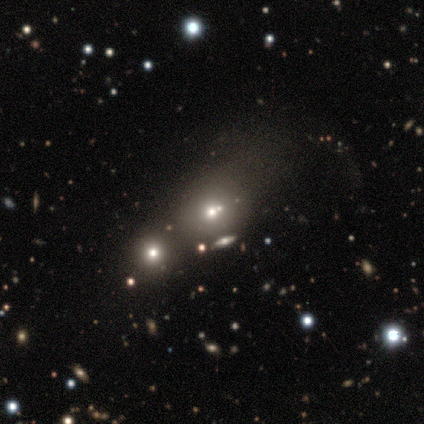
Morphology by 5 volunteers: Smooth or featured? 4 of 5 (80%) said smooth. How rounded? 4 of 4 (100%) said round. Merging? 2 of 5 (40%, tied with major disturbance) said none.